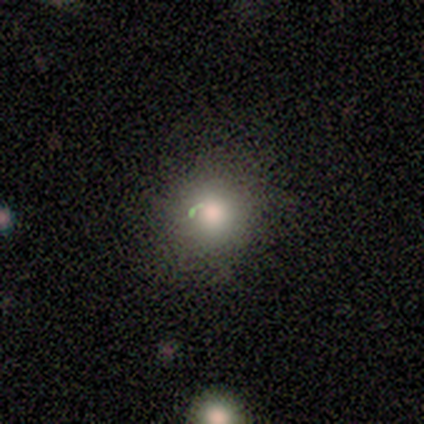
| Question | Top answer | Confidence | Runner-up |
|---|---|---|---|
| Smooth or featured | smooth | 57% | featured or disk (29%) |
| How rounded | round | 100% | — |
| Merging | none | 83% | major disturbance (17%) |